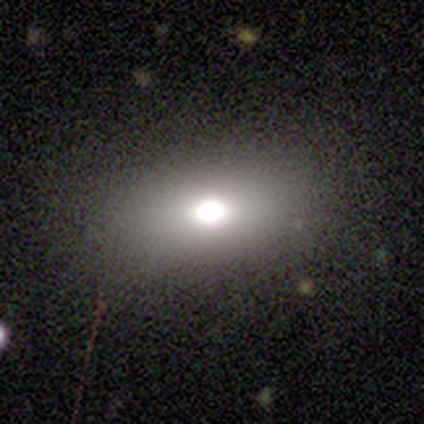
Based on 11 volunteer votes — This is likely a smooth galaxy (64%). How rounded: clearly in between (100%). Merging: clearly none (88%).